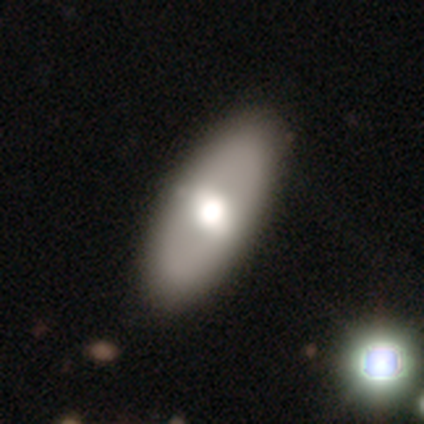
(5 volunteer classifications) This is likely a smooth galaxy (60%). How rounded: likely cigar-shaped (67%). Merging: clearly none (100%).